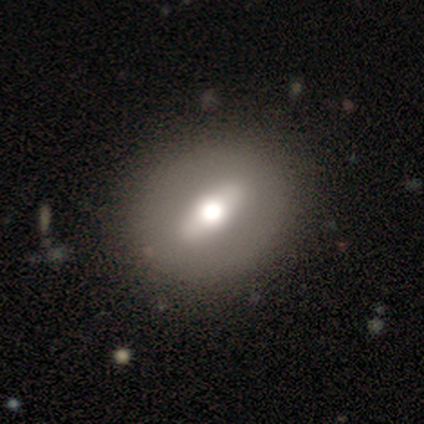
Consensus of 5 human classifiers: Morphology: type=featured or disk (100%); edge-on=no (100%); bar=strong (80%); spiral arms=no (100%); bulge=moderate (60%); merging=none (100%).